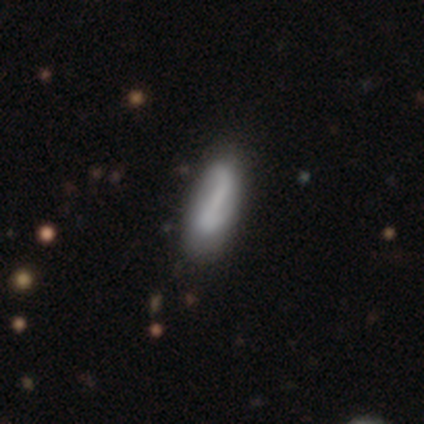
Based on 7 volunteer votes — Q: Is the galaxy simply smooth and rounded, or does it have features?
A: smooth — 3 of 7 (43%, tied with featured or disk).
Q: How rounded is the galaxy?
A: in between — 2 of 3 (67%).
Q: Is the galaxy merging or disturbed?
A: none — 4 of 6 (67%).